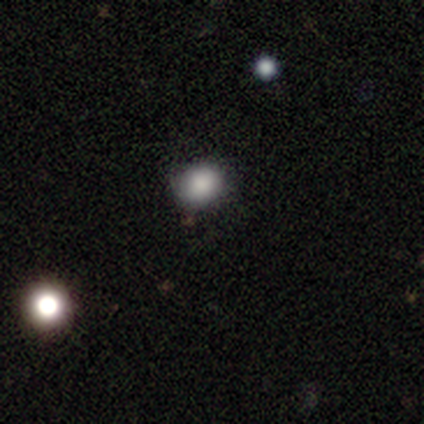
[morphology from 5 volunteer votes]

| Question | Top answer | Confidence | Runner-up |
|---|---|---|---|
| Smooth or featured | smooth | 60% | star or artifact (40%) |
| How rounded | round | 67% | in between (33%) |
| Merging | none | 100% | — |